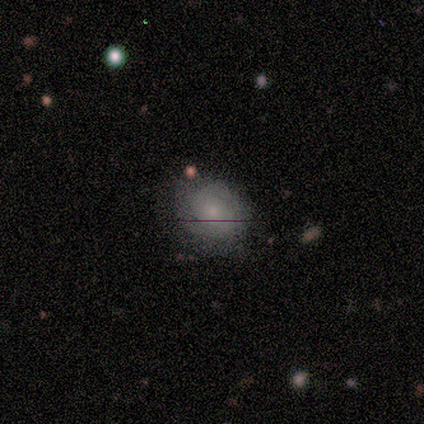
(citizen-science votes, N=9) smooth_or_featured: smooth (p=0.67) [alt: featured or disk p=0.22]
how_rounded: round (p=0.50) [tied with: in between p=0.50]
merging: none (p=0.88) [alt: minor disturbance p=0.12]